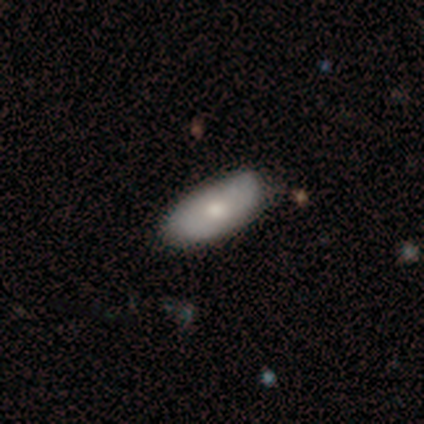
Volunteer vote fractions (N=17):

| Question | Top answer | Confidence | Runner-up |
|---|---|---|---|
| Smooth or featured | smooth | 71% | featured or disk (29%) |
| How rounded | in between | 92% | cigar-shaped (8%) |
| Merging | none | 71% | minor disturbance (24%) |